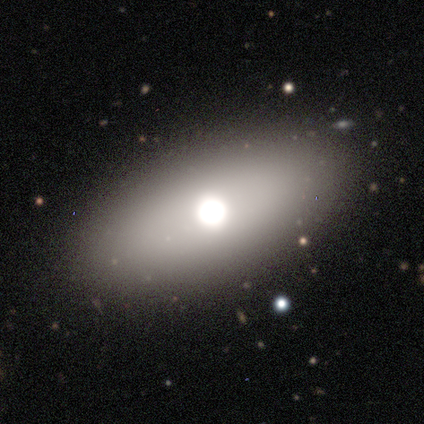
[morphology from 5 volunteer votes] Smooth or featured? smooth (60%)
How rounded? in between (100%)
Merging? none (60%)